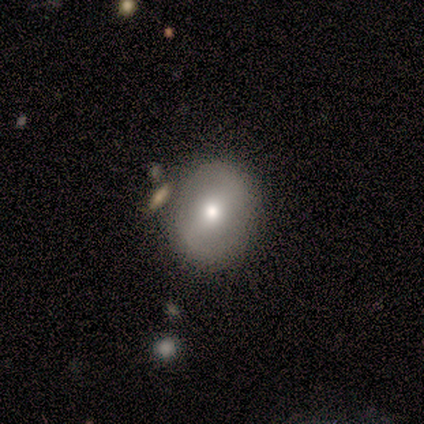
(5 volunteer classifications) Volunteers were most divided on "bulge size" (3-way tie): large: 33%, moderate: 33%, small: 33%, dominant: 0%, none: 0%. More confident: edge-on disk — no (100%); bar — weak (100%); spiral arms — no (100%); merging — none (75%); smooth or featured — featured or disk (60%).